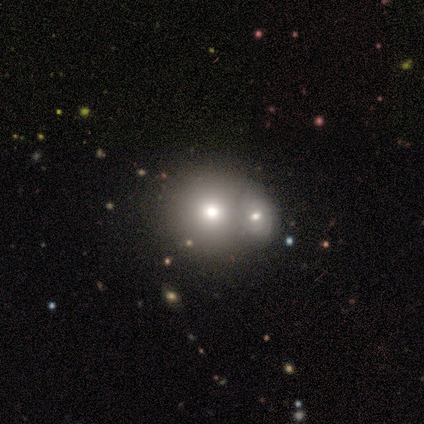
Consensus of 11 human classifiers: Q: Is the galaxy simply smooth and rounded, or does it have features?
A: smooth — 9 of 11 (82%).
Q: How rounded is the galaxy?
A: round — 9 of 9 (100%).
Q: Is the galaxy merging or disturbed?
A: merger — 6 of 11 (55%).